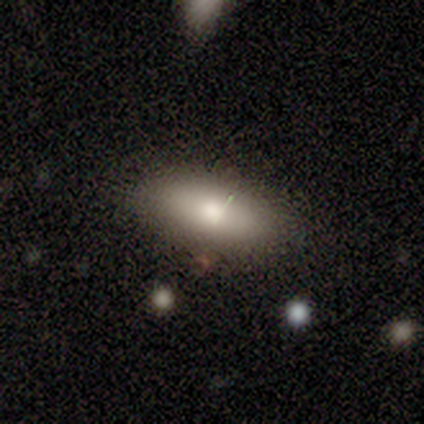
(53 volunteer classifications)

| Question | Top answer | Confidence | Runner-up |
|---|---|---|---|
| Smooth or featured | smooth | 83% | featured or disk (13%) |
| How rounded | in between | 91% | cigar-shaped (7%) |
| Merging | none | 76% | minor disturbance (14%) |